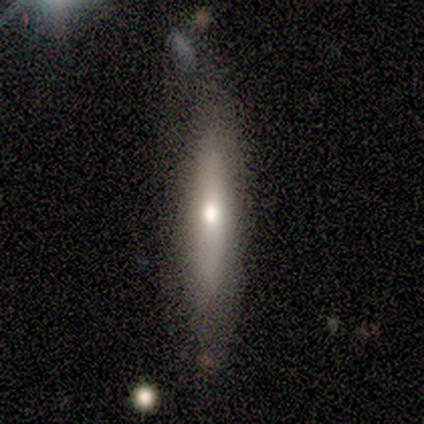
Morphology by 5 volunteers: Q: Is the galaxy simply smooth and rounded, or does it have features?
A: smooth — 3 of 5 (60%).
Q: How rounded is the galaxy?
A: cigar-shaped — 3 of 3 (100%).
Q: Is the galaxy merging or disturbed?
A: none — 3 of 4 (75%).